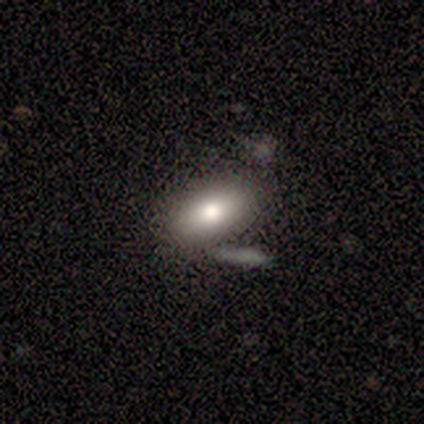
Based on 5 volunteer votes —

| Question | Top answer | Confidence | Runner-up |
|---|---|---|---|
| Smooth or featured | smooth | 80% | featured or disk (20%) |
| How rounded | in between | 100% | — |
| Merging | none | 60% | major disturbance (20%) |